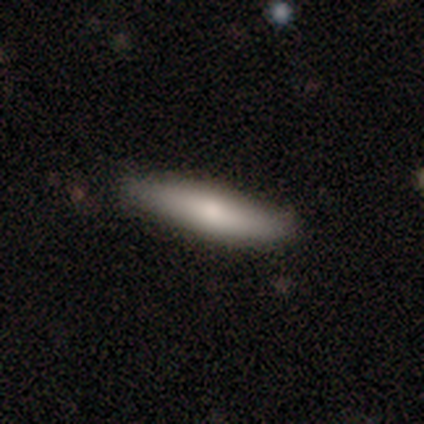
This is clearly a smooth galaxy (80%). How rounded: clearly cigar-shaped (100%). Merging: clearly none (100%).